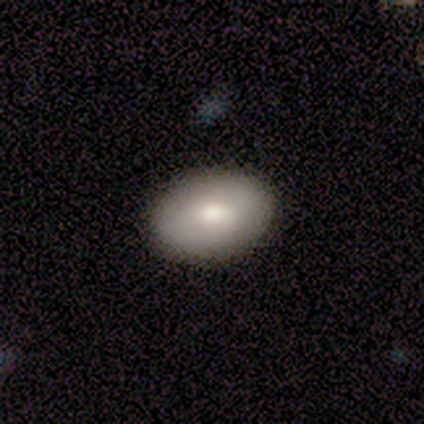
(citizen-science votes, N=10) Smooth or featured? 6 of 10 (60%) said smooth. How rounded? 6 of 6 (100%) said in between. Merging? 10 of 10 (100%) said none.